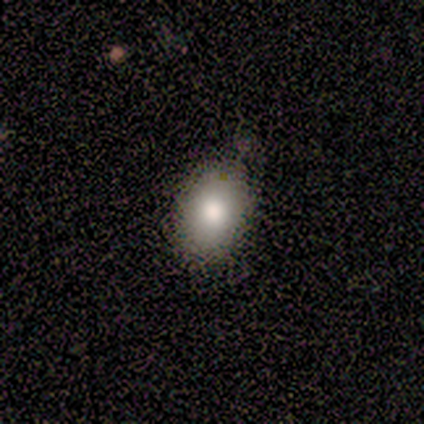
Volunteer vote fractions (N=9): A smooth galaxy with no disk features (89%) that is round (50%, tied with in between). Merging: none (78%).